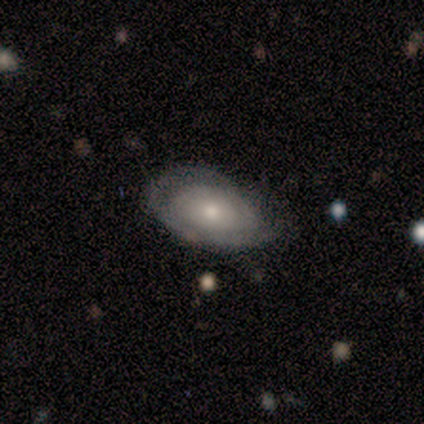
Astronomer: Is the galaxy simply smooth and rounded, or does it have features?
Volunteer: smooth — 60% (runner-up: featured or disk, 40%).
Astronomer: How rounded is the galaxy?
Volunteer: in between — 100%.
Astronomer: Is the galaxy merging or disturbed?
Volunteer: minor disturbance — 60% (runner-up: none, 40%).